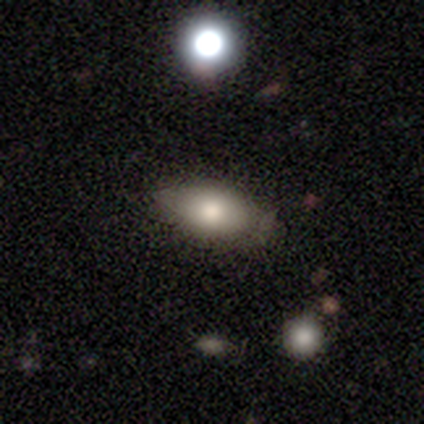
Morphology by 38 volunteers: Smooth or featured? smooth (58%)
How rounded? in between (100%)
Merging? none (78%)